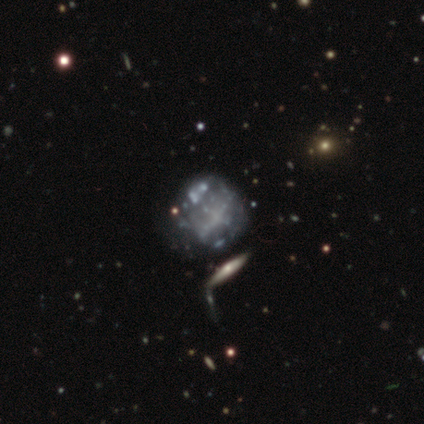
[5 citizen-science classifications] featured or disk 40% (tied), star or artifact 40% (tied), smooth 20%. Down the decision tree: edge-on disk — no (100%); bar — no (100%); spiral arms — no (100%); bulge size — none (100%); merging — none (67%).